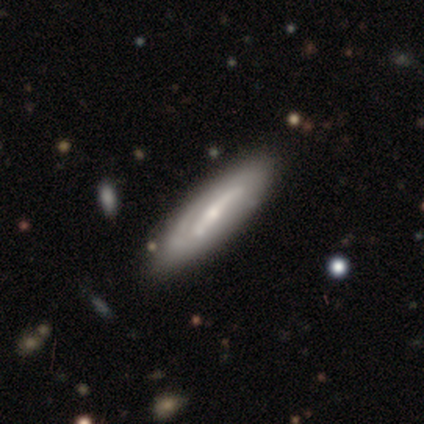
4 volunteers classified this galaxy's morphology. Smooth or featured: featured or disk — 75% (smooth — 25%)
Edge-on disk: no — 100%
Bar: weak — 67% (no — 33%)
Spiral arms: yes — 100%
Spiral winding: medium — 100%
Spiral arm count: 1 — 33% (tied with 3 — 33%; can't tell — 33%)
Bulge size: small — 67% (moderate — 33%)
Merging: none — 75% (merger — 25%)